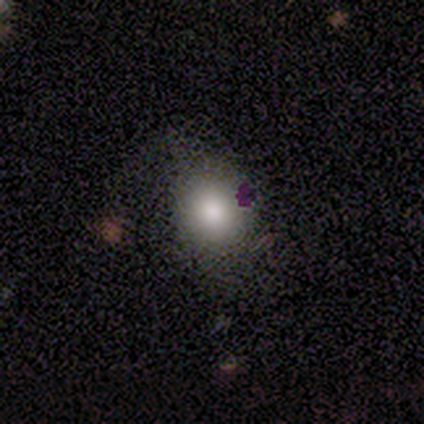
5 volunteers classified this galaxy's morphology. A smooth galaxy with no disk features (80%) that is round (100%).

Vote fractions:
- Smooth or featured? smooth: 80% / featured or disk: 20% / star or artifact: 0%
- How rounded? round: 100% / in between: 0% / cigar-shaped: 0%
- Merging? none: 40% (tied) / minor disturbance: 40% (tied) / major disturbance: 20% / merger: 0%